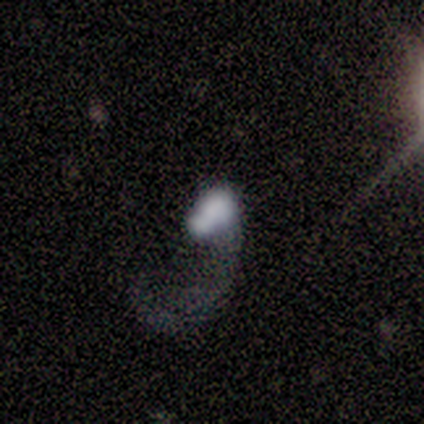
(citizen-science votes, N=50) This is possibly a smooth galaxy (48%). How rounded: likely in between (79%). Merging: possibly major disturbance (53%).